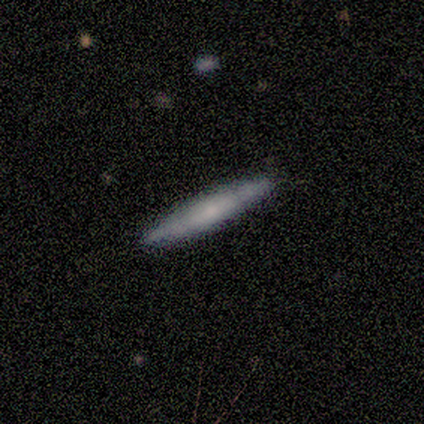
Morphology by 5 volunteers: smooth-or-featured: featured or disk: 60% | smooth: 40% | star or artifact: 0%
  disk-edge-on: yes: 100% | no: 0%
    edge-on-bulge: rounded: 67% | none: 33% | boxy: 0%
  merging: none: 100% | minor disturbance: 0% | major disturbance: 0% | merger: 0%